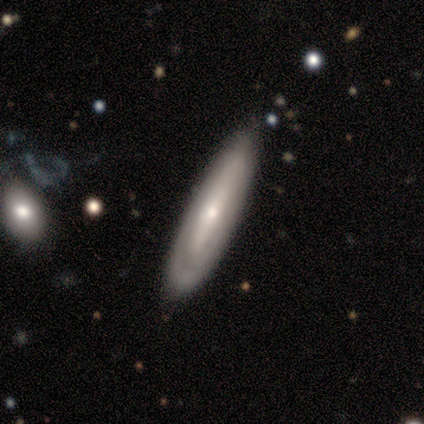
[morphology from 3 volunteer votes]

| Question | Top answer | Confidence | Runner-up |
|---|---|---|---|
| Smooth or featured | featured or disk | 67% | smooth (33%) |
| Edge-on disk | no | 100% | — |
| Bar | no | 100% | — |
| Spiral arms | yes | 50% | tied: no (50%) |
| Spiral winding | tight | 100% | — |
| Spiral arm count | can't tell | 100% | — |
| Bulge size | moderate | 50% | tied: small (50%) |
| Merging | none | 67% | minor disturbance (33%) |